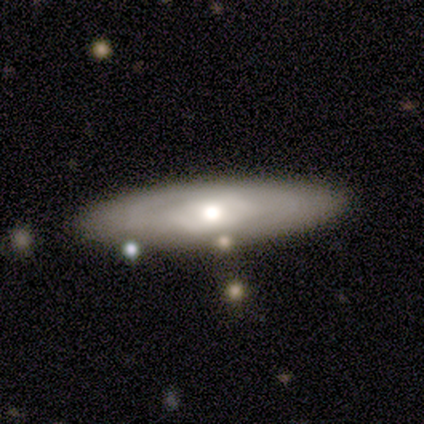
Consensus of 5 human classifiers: A featured or disk galaxy (60%) with no bar (100%), no spiral arms (100%) and a moderate central bulge (50%, tied with small).

Vote fractions:
- Smooth or featured? featured or disk: 60% / smooth: 40% / star or artifact: 0%
- Edge-on disk? no: 67% / yes: 33%
- Bar? no: 100% / strong: 0% / weak: 0%
- Spiral arms? no: 100% / yes: 0%
- Bulge size? moderate: 50% (tied) / small: 50% (tied) / dominant: 0% / large: 0% / none: 0%
- Merging? none: 80% / minor disturbance: 20% / major disturbance: 0% / merger: 0%